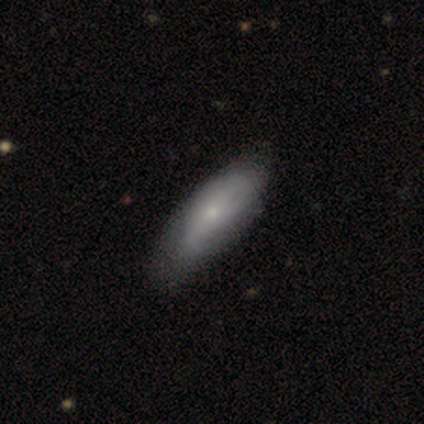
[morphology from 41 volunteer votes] A featured or disk galaxy (54%) with no bar (67%), tight (36%, tied with medium) spiral arms (61%) and a small central bulge (94%). Merging: none (41%).